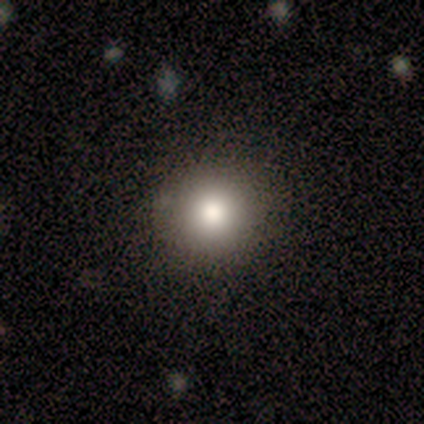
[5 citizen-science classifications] Smooth or featured: smooth — 100%
How rounded: round — 100%
Merging: none — 100%